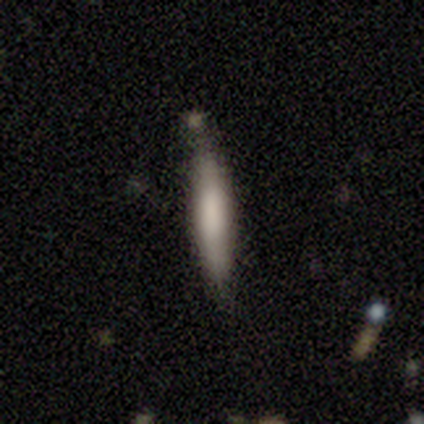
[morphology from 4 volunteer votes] A smooth galaxy with no disk features (50%, tied with featured or disk) that is cigar-shaped (100%). Merging: none (75%).